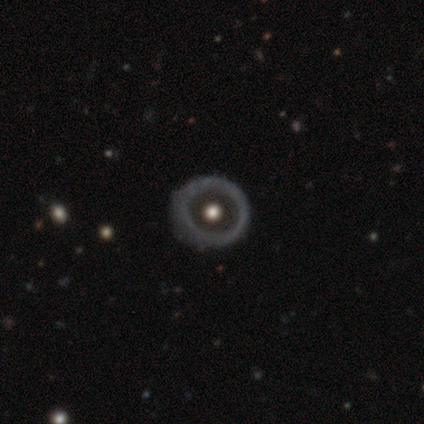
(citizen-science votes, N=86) Smooth or featured?
  - featured or disk: 64% *
  - smooth: 31%
  - star or artifact: 5%
Edge-on disk?
  - no: 95% *
  - yes: 5%
Bar?
  - no: 100% *
  - strong: 0%
  - weak: 0%
Spiral arms?
  - no: 94% *
  - yes: 6%
Bulge size?
  - moderate: 81% *
  - large: 10%
  - dominant: 6%
  - small: 4%
  - none: 0%
Merging?
  - none: 74% *
  - minor disturbance: 24%
  - major disturbance: 1%
  - merger: 0%